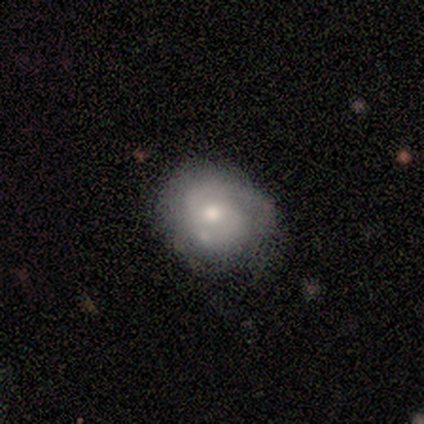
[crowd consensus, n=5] Smooth or featured: featured or disk — 100%
Edge-on disk: no — 80% (yes — 20%)
Bar: no — 75% (weak — 25%)
Spiral arms: yes — 75% (no — 25%)
Spiral winding: tight — 67% (loose — 33%)
Spiral arm count: 2 — 67% (can't tell — 33%)
Bulge size: moderate — 50% (tied with small — 50%)
Merging: none — 40% (tied with minor disturbance — 40%)